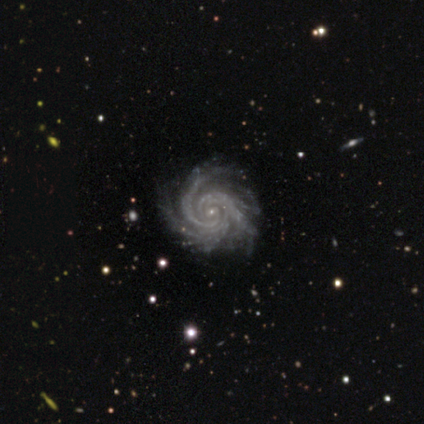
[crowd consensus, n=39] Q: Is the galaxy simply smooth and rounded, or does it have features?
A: featured or disk — 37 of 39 (95%).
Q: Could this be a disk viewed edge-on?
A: no — 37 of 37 (100%).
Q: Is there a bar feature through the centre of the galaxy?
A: no — 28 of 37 (76%).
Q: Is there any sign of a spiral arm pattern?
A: yes — 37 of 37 (100%).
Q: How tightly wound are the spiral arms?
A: tight — 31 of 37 (84%).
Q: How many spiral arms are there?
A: more than 4 — 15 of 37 (41%).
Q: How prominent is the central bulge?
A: small — 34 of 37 (92%).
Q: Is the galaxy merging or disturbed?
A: none — 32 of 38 (84%).